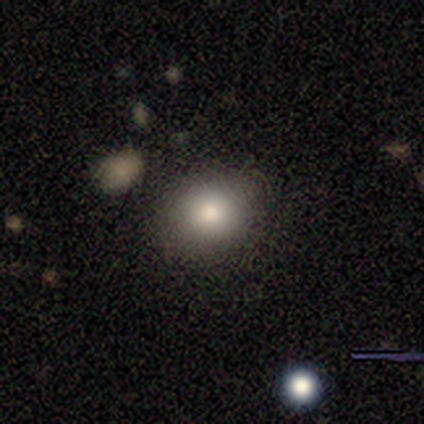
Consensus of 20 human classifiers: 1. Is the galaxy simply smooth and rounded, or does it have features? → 80% smooth, 15% featured or disk, 5% star or artifact.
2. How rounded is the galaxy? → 75% round, 25% in between, 0% cigar-shaped.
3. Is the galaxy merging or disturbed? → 95% none, 5% minor disturbance, 0% major disturbance, 0% merger.